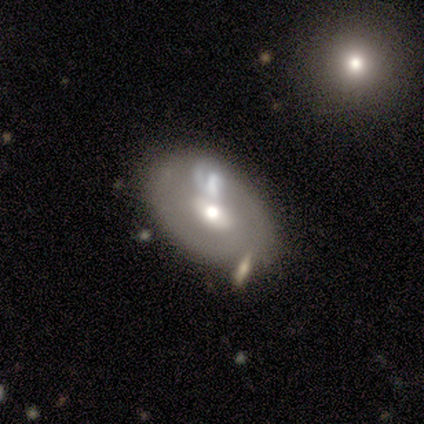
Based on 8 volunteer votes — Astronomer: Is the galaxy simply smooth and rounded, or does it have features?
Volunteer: featured or disk — 62%.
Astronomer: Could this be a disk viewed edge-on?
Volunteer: no — 60% (runner-up: yes, 40%).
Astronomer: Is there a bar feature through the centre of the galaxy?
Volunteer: no — 67%.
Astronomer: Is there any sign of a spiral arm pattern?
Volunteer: yes — 67%.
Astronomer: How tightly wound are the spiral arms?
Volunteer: tight — 50%, tied with medium at 50%.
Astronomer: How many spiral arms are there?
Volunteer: can't tell — 100%.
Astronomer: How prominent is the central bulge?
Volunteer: moderate — 100%.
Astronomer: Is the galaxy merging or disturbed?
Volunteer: none — 50% (runner-up: merger, 38%).